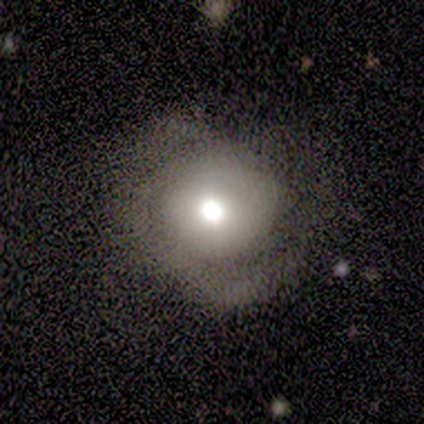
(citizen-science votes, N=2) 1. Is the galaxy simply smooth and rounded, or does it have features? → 100% featured or disk, 0% smooth, 0% star or artifact.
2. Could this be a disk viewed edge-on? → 100% no, 0% yes.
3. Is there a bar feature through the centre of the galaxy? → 100% no, 0% strong, 0% weak.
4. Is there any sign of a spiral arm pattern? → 100% yes, 0% no.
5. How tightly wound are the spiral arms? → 50% medium (tied), 50% loose (tied), 0% tight.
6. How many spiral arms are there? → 100% 2, 0% 1, 0% 3, 0% 4, 0% more than 4, 0% can't tell.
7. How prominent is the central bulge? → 50% large (tied), 50% moderate (tied), 0% dominant, 0% small, 0% none.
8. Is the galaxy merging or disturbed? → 100% none, 0% minor disturbance, 0% major disturbance, 0% merger.